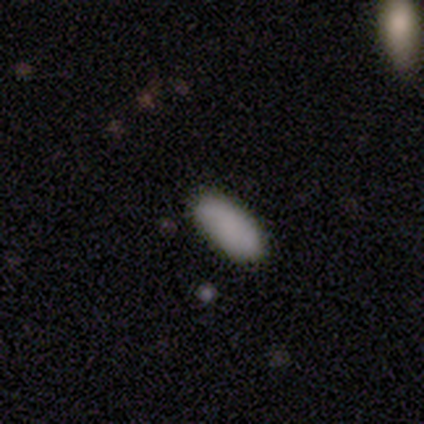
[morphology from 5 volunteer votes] Smooth or featured? smooth (100%)
How rounded? in between (80%)
Merging? none (80%)